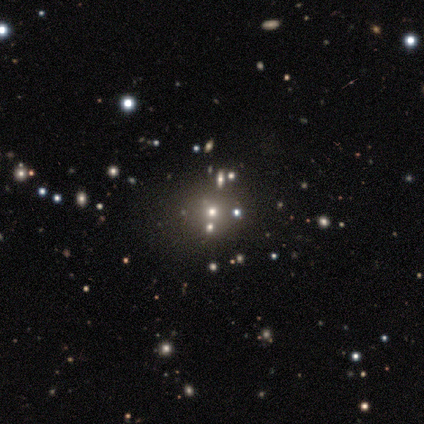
Smooth or featured: smooth — 80% (star or artifact — 20%)
How rounded: round — 75% (in between — 25%)
Merging: none — 50% (tied with minor disturbance — 50%)